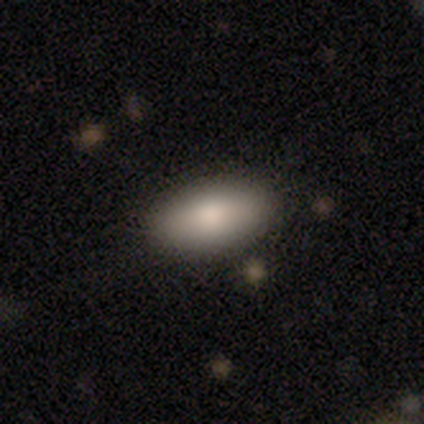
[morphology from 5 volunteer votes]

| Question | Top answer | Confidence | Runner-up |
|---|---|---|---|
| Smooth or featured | smooth | 60% | featured or disk (20%) |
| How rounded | in between | 100% | — |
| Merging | none | 75% | merger (25%) |